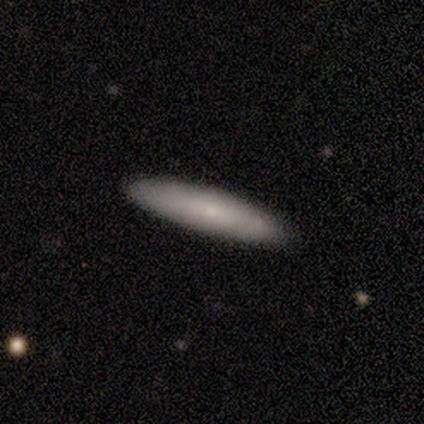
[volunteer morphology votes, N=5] Overall: smooth (80%). How rounded: cigar-shaped (75%). Merging: none (80%).